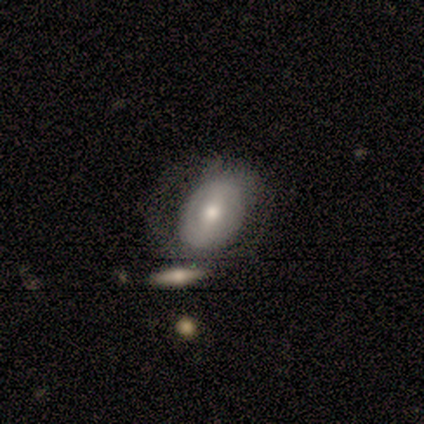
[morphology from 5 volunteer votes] smooth_or_featured: featured or disk (p=0.80) [alt: star or artifact p=0.20]
disk_edge_on: no (p=0.75) [alt: yes p=0.25]
bar: strong (p=0.67) [alt: no p=0.33]
has_spiral_arms: no (p=0.67) [alt: yes p=0.33]
bulge_size: small (p=0.67) [alt: moderate p=0.33]
merging: none (p=0.75) [alt: minor disturbance p=0.25]